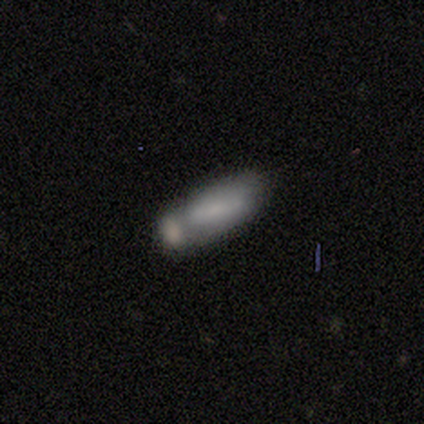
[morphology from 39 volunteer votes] A smooth galaxy with no disk features (67%) that is in between round and cigar-shaped (62%).

Vote fractions:
- Smooth or featured? smooth: 67% / featured or disk: 23% / star or artifact: 10%
- How rounded? in between: 62% / cigar-shaped: 38% / round: 0%
- Merging? merger: 51% / none: 26% / minor disturbance: 14% / major disturbance: 9%